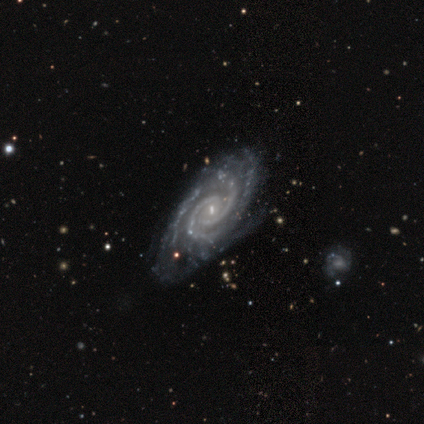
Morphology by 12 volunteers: smooth_or_featured: featured or disk (p=1.00)
disk_edge_on: no (p=1.00)
bar: weak (p=0.42) [alt: strong p=0.33]
has_spiral_arms: yes (p=1.00)
spiral_winding: tight (p=0.75) [alt: medium p=0.25]
spiral_arm_count: 2 (p=0.58) [alt: can't tell p=0.17]
bulge_size: small (p=0.67) [alt: moderate p=0.17]
merging: none (p=0.75) [alt: minor disturbance p=0.17]